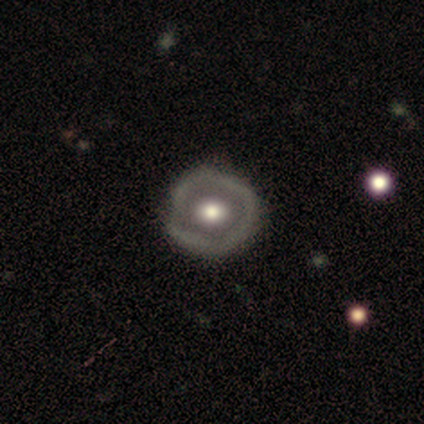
This is clearly a featured or disk galaxy (82%). It is clearly not viewed edge-on (100%). Bar: clearly no (89%). Spiral arm pattern: clearly no (100%). Central bulge: likely moderate (78%). Merging: likely none (73%).